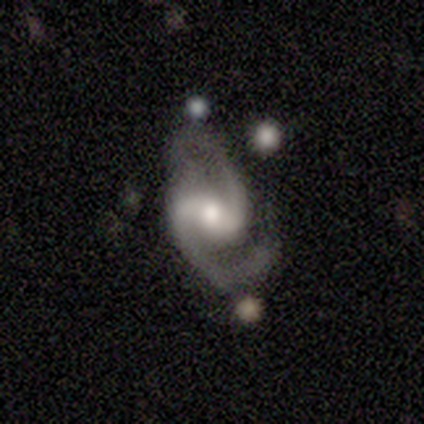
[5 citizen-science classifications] This is clearly a featured or disk galaxy (80%). It is clearly not viewed edge-on (100%). Bar: possibly weak (50%, tied with no). Spiral arm pattern: clearly yes (100%). Spiral arm count: clearly 2 (100%). Spiral winding: clearly medium (100%). Central bulge: likely moderate (75%). Merging: likely none (75%).